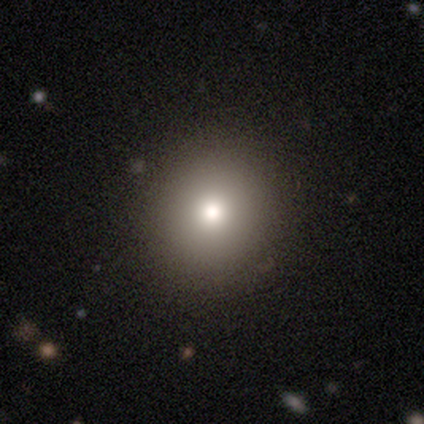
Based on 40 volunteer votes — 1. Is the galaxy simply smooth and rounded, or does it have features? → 70% smooth, 20% featured or disk, 10% star or artifact.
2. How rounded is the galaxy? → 100% round, 0% in between, 0% cigar-shaped.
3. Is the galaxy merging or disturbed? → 94% none, 6% minor disturbance, 0% major disturbance, 0% merger.